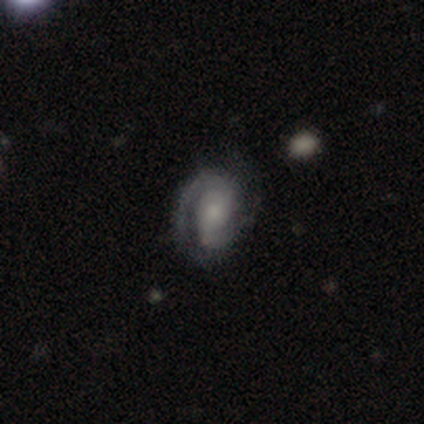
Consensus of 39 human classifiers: Overall: featured or disk (82%). Edge-on disk: no (97%). Bar: no (58%; weak 32%). Spiral arms: yes (97%). Spiral arm count: 2 (83%). Spiral winding: tight (53%; medium 37%). Bulge size: small (55%; moderate 32%). Merging: none (68%).